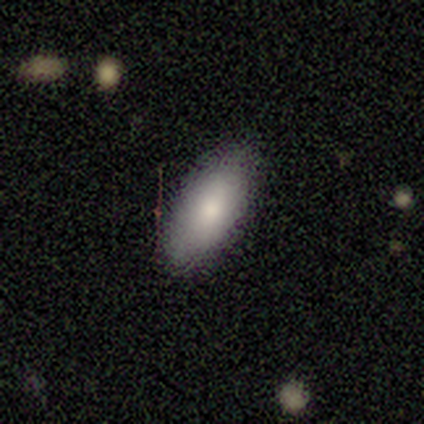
Q: Smooth or featured?
A: smooth (95%); runner-up: featured or disk (5%)
Q: How rounded?
A: in between (94%); runner-up: cigar-shaped (6%)
Q: Merging?
A: none (92%); runner-up: minor disturbance (5%)